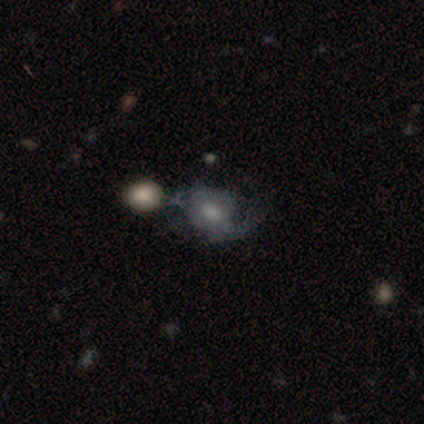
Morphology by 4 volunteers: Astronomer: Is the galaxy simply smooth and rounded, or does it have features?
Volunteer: featured or disk — 75%.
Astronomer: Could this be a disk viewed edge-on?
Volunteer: no — 100%.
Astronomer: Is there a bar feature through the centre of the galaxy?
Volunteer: weak — 67%.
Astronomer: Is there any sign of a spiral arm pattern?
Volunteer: yes — 100%.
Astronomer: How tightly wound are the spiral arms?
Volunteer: tight — 33%, tied with medium and loose at 33%.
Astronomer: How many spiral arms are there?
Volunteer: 2 — 100%.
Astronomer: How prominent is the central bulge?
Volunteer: large — 67%.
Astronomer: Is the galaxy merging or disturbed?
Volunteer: merger — 50%.